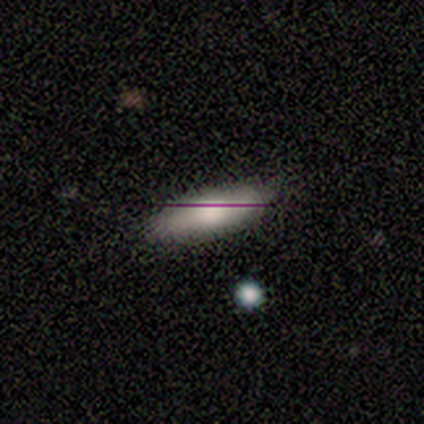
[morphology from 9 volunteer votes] Overall: smooth (78%). How rounded: in between (57%; cigar-shaped 43%). Merging: none (100%).